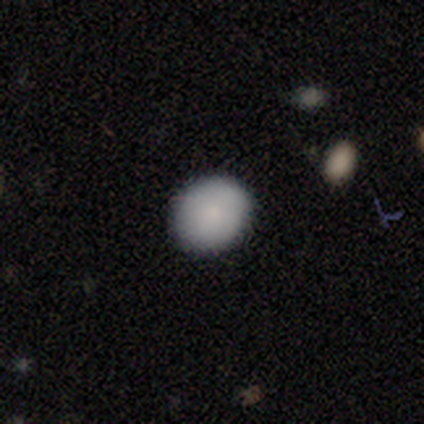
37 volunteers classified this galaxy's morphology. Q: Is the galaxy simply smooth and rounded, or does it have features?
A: smooth — 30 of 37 (81%).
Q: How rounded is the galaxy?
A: round — 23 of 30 (77%).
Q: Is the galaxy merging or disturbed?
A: none — 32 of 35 (91%).